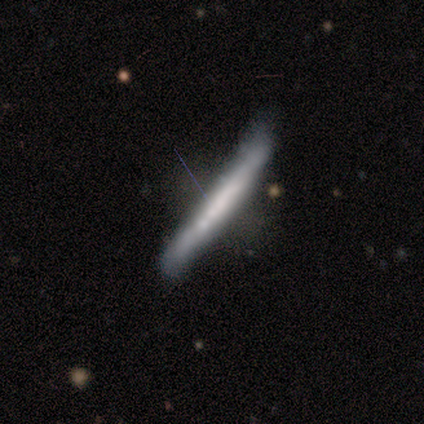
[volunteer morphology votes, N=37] Smooth or featured? featured or disk (68%)
Edge-on disk? yes (88%)
Edge-on bulge? none (77%)
Merging? none (55%)